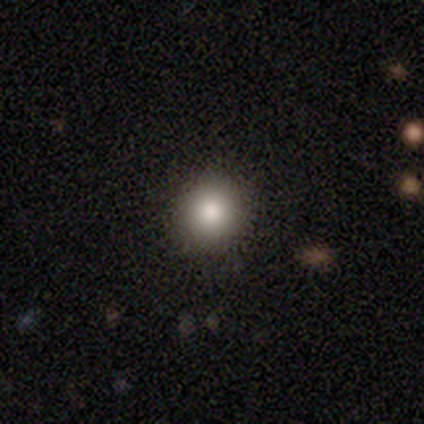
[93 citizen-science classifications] A smooth galaxy with no disk features (90%) that is round (87%). Merging: none (88%).